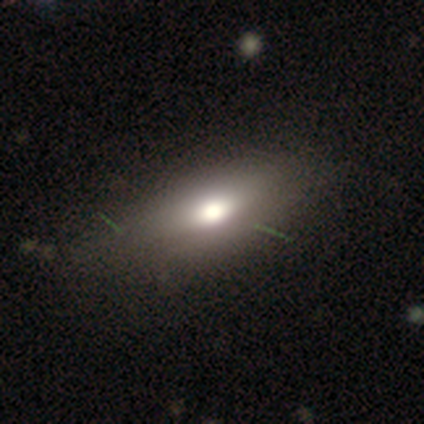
Smooth or featured?
  - smooth: 64% *
  - featured or disk: 31%
  - star or artifact: 5%
How rounded?
  - in between: 92% *
  - round: 4%
  - cigar-shaped: 4%
Merging?
  - none: 43% *
  - minor disturbance: 30%
  - major disturbance: 5%
  - merger: 0%